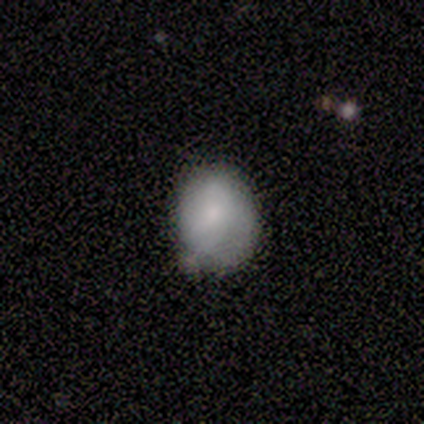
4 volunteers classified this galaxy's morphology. Overall: smooth (100%). How rounded: in between (50%; round 25%). Merging: minor disturbance (75%).